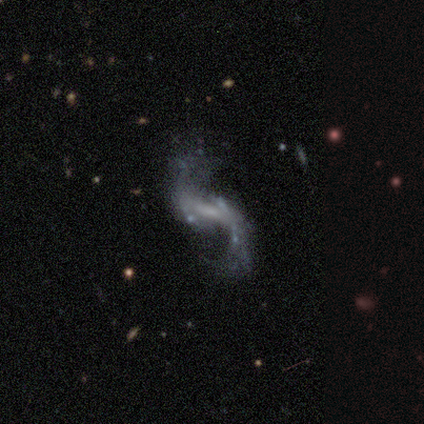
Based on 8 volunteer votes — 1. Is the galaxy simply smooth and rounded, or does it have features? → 88% featured or disk, 12% star or artifact, 0% smooth.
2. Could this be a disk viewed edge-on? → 100% no, 0% yes.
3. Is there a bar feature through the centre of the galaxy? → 43% weak, 29% strong, 29% no.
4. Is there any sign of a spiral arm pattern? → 86% yes, 14% no.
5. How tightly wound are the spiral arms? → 100% loose, 0% tight, 0% medium.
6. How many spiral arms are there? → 100% 2, 0% 1, 0% 3, 0% 4, 0% more than 4, 0% can't tell.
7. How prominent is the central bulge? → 43% small (tied), 43% none (tied), 14% moderate, 0% dominant, 0% large.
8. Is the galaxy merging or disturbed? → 71% none, 14% minor disturbance, 14% merger, 0% major disturbance.